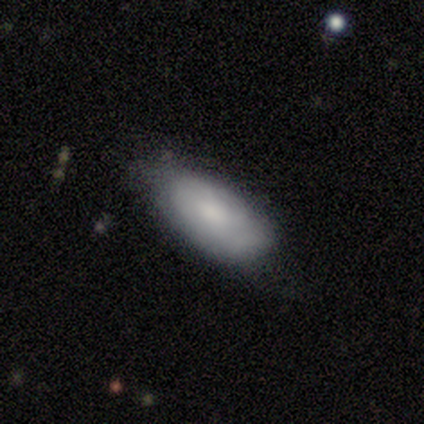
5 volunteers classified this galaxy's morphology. A smooth galaxy with no disk features (60%) that is in between round and cigar-shaped (100%). Merging: none (100%).